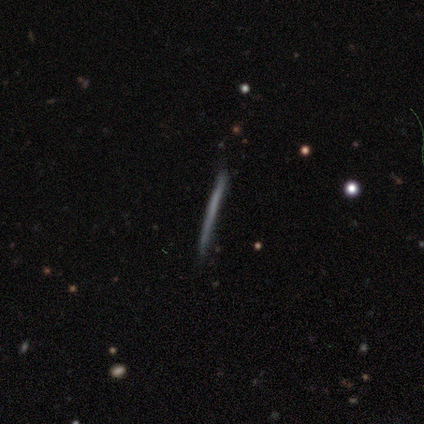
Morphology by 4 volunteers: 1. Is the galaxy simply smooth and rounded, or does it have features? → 50% smooth (tied), 50% featured or disk (tied), 0% star or artifact.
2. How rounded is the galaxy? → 100% cigar-shaped, 0% round, 0% in between.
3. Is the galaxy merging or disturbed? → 100% none, 0% minor disturbance, 0% major disturbance, 0% merger.